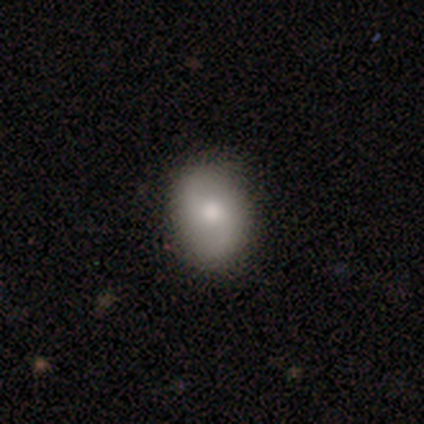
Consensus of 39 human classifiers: Smooth or featured? 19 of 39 (49%) said featured or disk. Edge-on disk? 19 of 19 (100%) said no. Bar? 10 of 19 (53%) said no. Spiral arms? 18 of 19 (95%) said yes. Spiral winding? 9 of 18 (50%) said loose. Spiral arm count? 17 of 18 (94%) said 2. Bulge size? 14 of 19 (74%) said moderate. Merging? 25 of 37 (68%) said none.